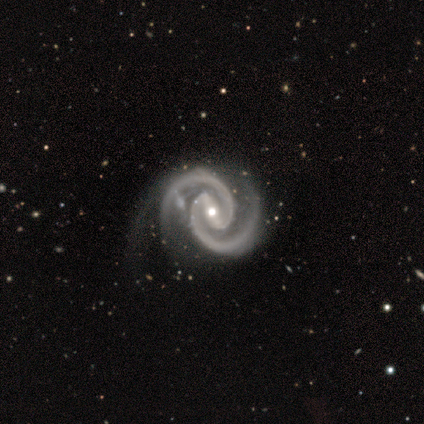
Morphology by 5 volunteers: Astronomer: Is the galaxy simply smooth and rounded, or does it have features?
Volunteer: featured or disk — 100%.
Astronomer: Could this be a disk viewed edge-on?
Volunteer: no — 100%.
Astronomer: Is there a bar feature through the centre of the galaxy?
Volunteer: strong — 80%.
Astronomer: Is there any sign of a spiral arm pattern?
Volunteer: yes — 100%.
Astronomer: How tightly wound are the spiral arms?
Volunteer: tight — 80%.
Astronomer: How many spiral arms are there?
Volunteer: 2 — 100%.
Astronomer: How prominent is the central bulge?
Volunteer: moderate — 60% (runner-up: small, 40%).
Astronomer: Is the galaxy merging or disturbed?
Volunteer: minor disturbance — 60% (runner-up: none, 40%).